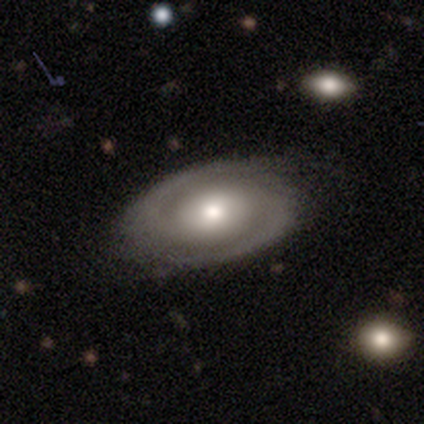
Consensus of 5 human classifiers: A featured or disk galaxy (60%) with no bar (67%), 2 (100%) tight (67%) spiral arms (100%) and a moderate central bulge (67%).

Vote fractions:
- Smooth or featured? featured or disk: 60% / smooth: 40% / star or artifact: 0%
- Edge-on disk? no: 100% / yes: 0%
- Bar? no: 67% / weak: 33% / strong: 0%
- Spiral arms? yes: 100% / no: 0%
- Spiral winding? tight: 67% / medium: 33% / loose: 0%
- Spiral arm count? 2: 100% / 1: 0% / 3: 0% / 4: 0% / more than 4: 0% / can't tell: 0%
- Bulge size? moderate: 67% / small: 33% / dominant: 0% / large: 0% / none: 0%
- Merging? none: 100% / minor disturbance: 0% / major disturbance: 0% / merger: 0%